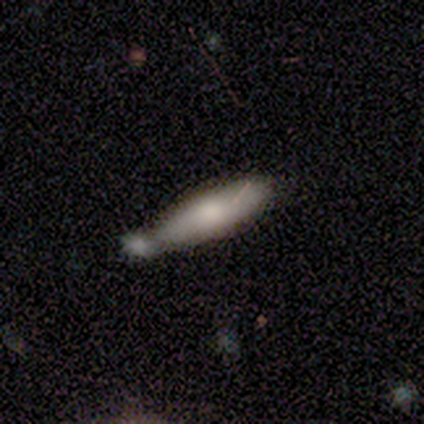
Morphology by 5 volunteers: Smooth or featured? featured or disk (60%)
Edge-on disk? yes (67%)
Edge-on bulge? rounded (100%)
Merging? merger (60%)